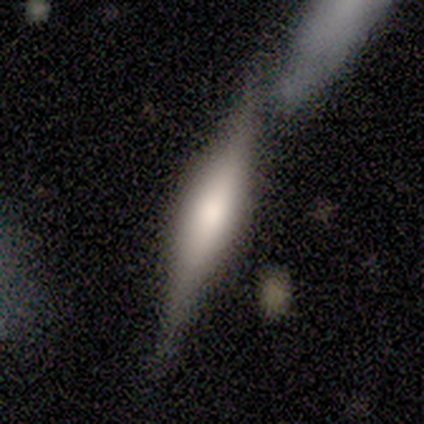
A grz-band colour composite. It shows a featured or disk galaxy (75%) viewed edge-on (100%) with a rounded central bulge (67%). Merging: none (50%).